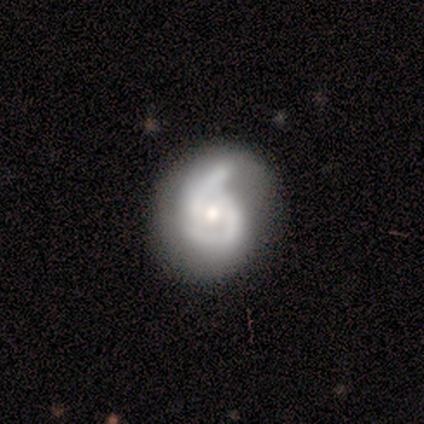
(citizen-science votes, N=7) Smooth or featured? 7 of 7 (100%) said featured or disk. Edge-on disk? 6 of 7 (86%) said no. Bar? 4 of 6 (67%) said no. Spiral arms? 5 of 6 (83%) said yes. Spiral winding? 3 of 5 (60%) said tight. Spiral arm count? 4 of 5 (80%) said 2. Bulge size? 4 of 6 (67%) said small. Merging? 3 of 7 (43%, tied with minor disturbance) said none.